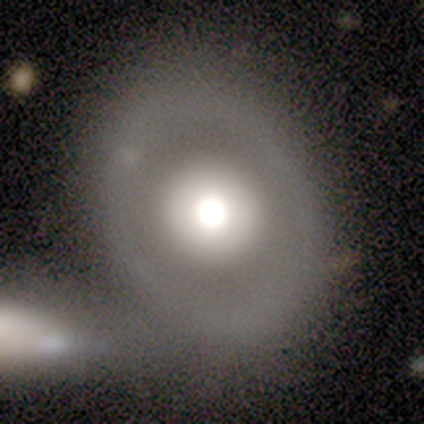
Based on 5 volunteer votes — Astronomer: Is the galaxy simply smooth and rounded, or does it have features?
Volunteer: featured or disk — 80%.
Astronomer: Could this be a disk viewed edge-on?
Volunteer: no — 100%.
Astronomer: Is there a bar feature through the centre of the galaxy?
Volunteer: no — 100%.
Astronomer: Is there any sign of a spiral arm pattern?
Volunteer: no — 75%.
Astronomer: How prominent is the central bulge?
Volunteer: moderate — 50%.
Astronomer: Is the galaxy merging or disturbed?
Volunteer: none — 60%.